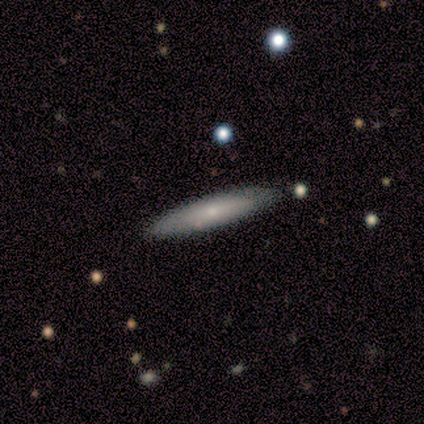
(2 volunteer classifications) This is possibly a smooth galaxy (50%, tied with star or artifact). How rounded: clearly cigar-shaped (100%). Merging: clearly minor disturbance (100%).